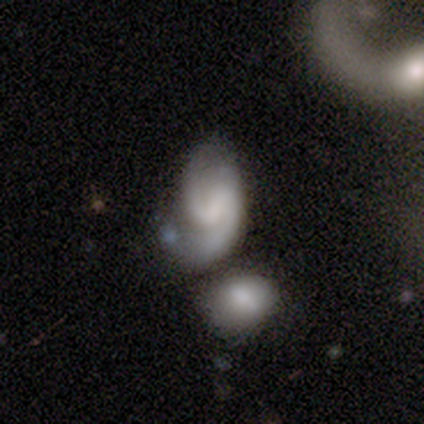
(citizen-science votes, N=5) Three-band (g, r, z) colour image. It shows a featured or disk galaxy (80%) with a weak bar (50%), 2 (100%) medium (50%) spiral arms (100%) and a small central bulge (50%, tied with none). Merging: none (40%, tied with merger).